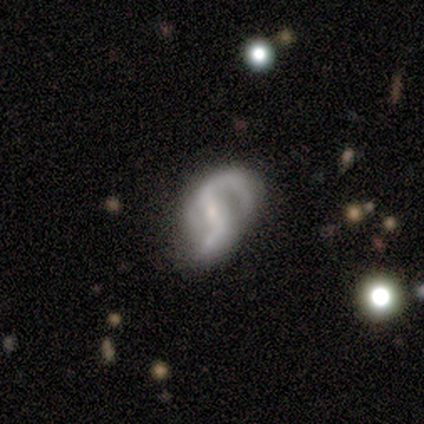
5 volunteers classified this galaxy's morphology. A featured or disk galaxy (100%) with a strong bar (60%), 1 (40%, tied with 2) loose (60%) spiral arms (100%) and a small central bulge (60%). Merging: minor disturbance (40%, tied with major disturbance).